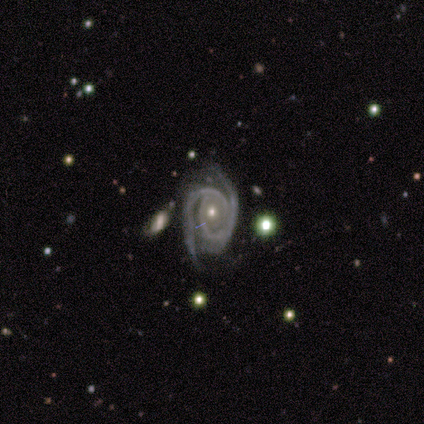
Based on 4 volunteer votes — A featured or disk galaxy (100%) with no bar (75%), 2 (75%) tight (50%) spiral arms (100%) and a small central bulge (100%).

Vote fractions:
- Smooth or featured? featured or disk: 100% / smooth: 0% / star or artifact: 0%
- Edge-on disk? no: 100% / yes: 0%
- Bar? no: 75% / strong: 25% / weak: 0%
- Spiral arms? yes: 100% / no: 0%
- Spiral winding? tight: 50% / medium: 25% / loose: 25%
- Spiral arm count? 2: 75% / 3: 25% / 1: 0% / 4: 0% / more than 4: 0% / can't tell: 0%
- Bulge size? small: 100% / dominant: 0% / large: 0% / moderate: 0% / none: 0%
- Merging? none: 75% / minor disturbance: 25% / major disturbance: 0% / merger: 0%